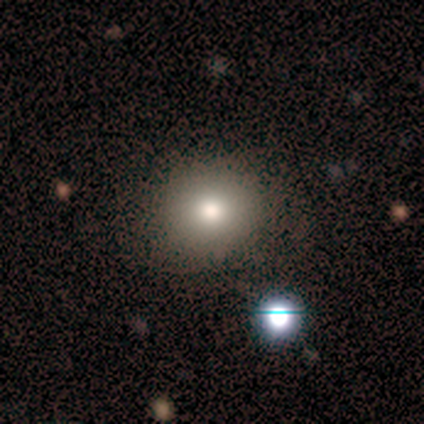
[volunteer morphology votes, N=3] type=smooth (67%); roundness=round (100%); merging=none (100%).